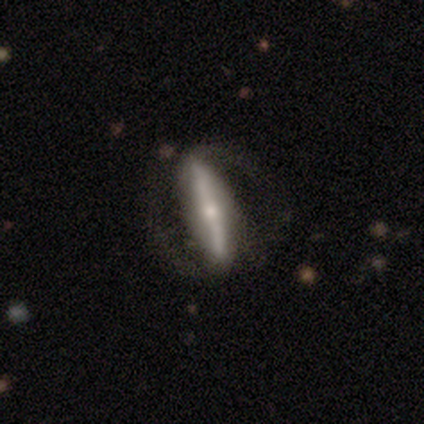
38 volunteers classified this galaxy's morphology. type=featured or disk (82%); edge-on=no (65%); bar=strong (80%); spiral arms=yes (95%); winding=medium (37%); arm count=2 (84%); bulge=small (80%); merging=none (61%).